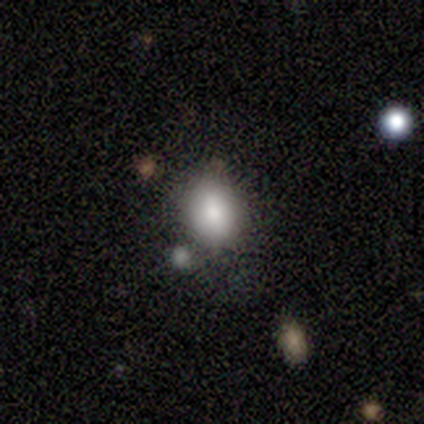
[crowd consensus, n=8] A smooth galaxy with no disk features (88%) that is in between round and cigar-shaped (71%).

Vote fractions:
- Smooth or featured? smooth: 88% / star or artifact: 12% / featured or disk: 0%
- How rounded? in between: 71% / round: 29% / cigar-shaped: 0%
- Merging? none: 71% / minor disturbance: 29% / major disturbance: 0% / merger: 0%